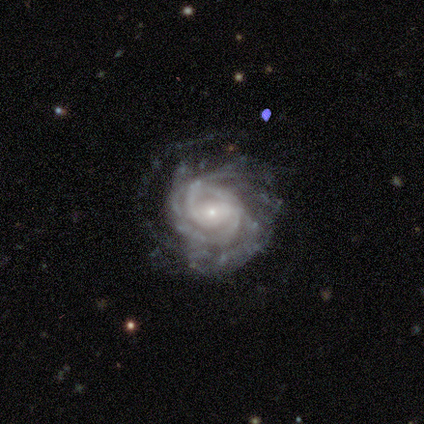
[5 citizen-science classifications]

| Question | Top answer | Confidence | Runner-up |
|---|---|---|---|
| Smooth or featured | featured or disk | 100% | — |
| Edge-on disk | no | 100% | — |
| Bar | weak | 100% | — |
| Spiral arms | yes | 100% | — |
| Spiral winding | tight | 100% | — |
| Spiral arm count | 2 | 40% | tied: can't tell (40%) |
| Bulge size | small | 80% | moderate (20%) |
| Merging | none | 60% | minor disturbance (20%) |